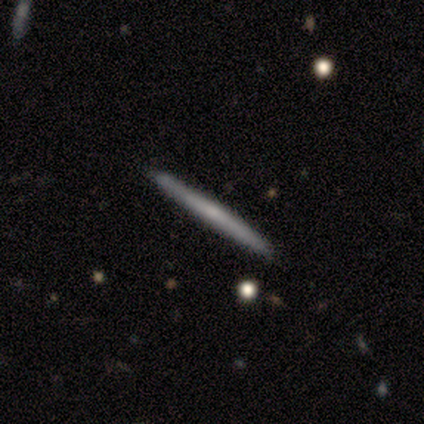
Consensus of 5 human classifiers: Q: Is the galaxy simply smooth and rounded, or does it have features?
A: smooth — 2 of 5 (40%, tied with featured or disk).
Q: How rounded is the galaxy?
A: cigar-shaped — 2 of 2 (100%).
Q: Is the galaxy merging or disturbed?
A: none — 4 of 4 (100%).